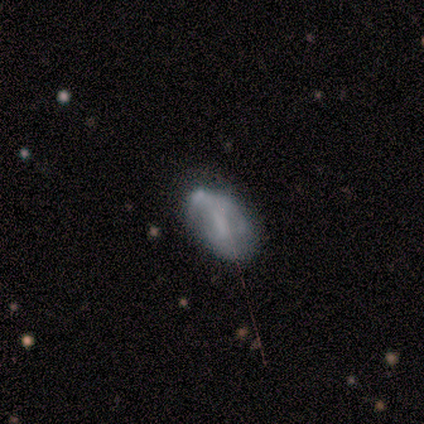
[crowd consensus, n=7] Smooth or featured? smooth (86%)
How rounded? in between (100%)
Merging? minor disturbance (57%)